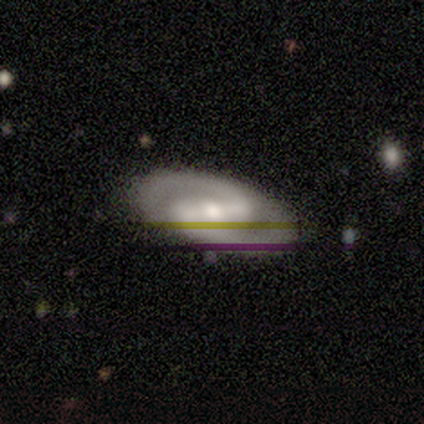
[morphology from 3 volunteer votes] Smooth or featured? featured or disk (67%)
Edge-on disk? no (100%)
Bar? strong (100%)
Spiral arms? yes (100%)
Spiral winding? tight (50%, tied with medium)
Spiral arm count? 2 (100%)
Bulge size? moderate (100%)
Merging? none (100%)